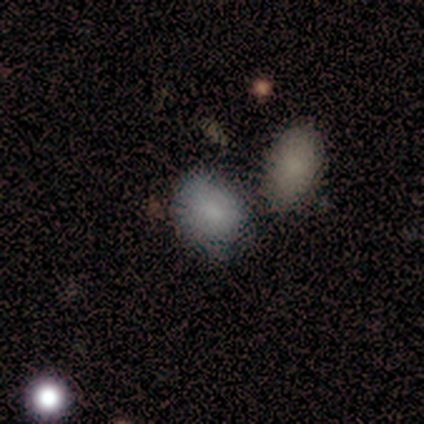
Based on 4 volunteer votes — A smooth galaxy with no disk features (100%) that is round (50%, tied with in between). Merging: none (50%).